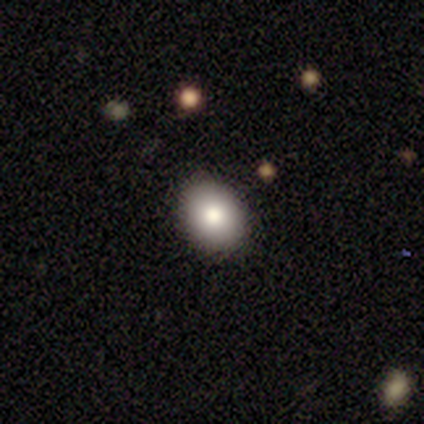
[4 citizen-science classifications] This appears to be a smooth galaxy with no disk features (75%) that is in between round and cigar-shaped (67%). Merging: none (75%).